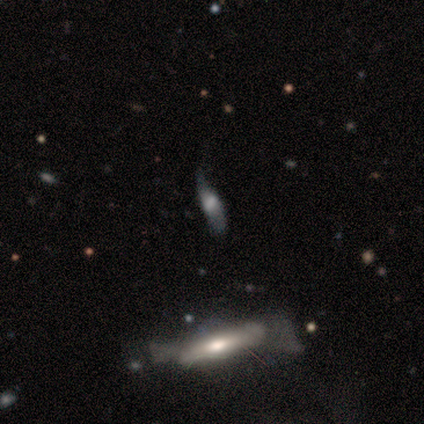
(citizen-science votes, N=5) smooth-or-featured: smooth: 80% | featured or disk: 20% | star or artifact: 0%
  how-rounded: cigar-shaped: 75% | in between: 25% | round: 0%
  merging: none: 40% (tied) | major disturbance: 40% (tied) | minor disturbance: 20% | merger: 0%